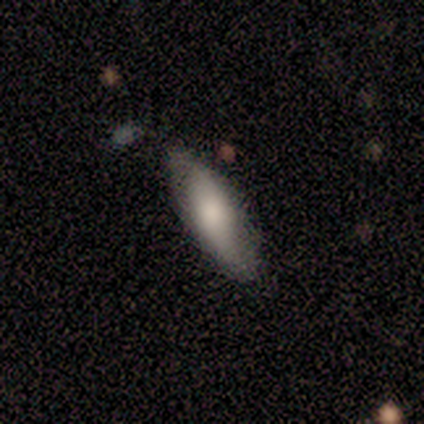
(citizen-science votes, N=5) This is clearly a smooth galaxy (80%). How rounded: possibly in between (50%, tied with cigar-shaped). Merging: likely none (75%).